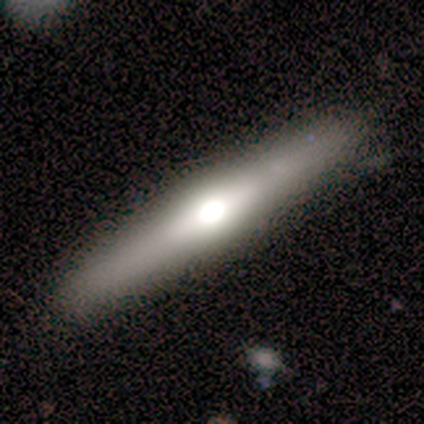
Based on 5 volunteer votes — smooth-or-featured: featured or disk: 60% | smooth: 40% | star or artifact: 0%
  disk-edge-on: yes: 100% | no: 0%
    edge-on-bulge: rounded: 100% | boxy: 0% | none: 0%
  merging: none: 60% | minor disturbance: 40% | major disturbance: 0% | merger: 0%